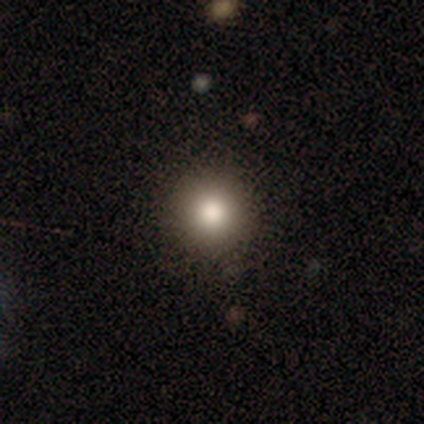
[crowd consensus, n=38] Smooth or featured? smooth (82%)
How rounded? round (94%)
Merging? none (97%)